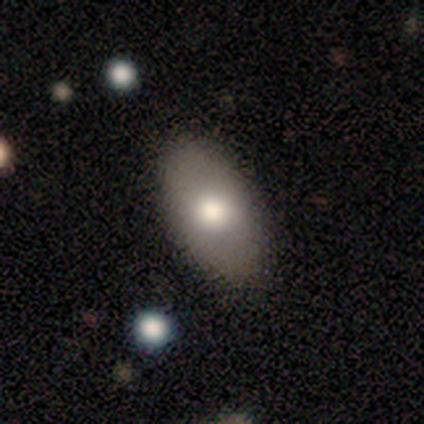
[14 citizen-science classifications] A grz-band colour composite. It shows a smooth galaxy with no disk features (79%) that is in between round and cigar-shaped (91%). Merging: none (93%).